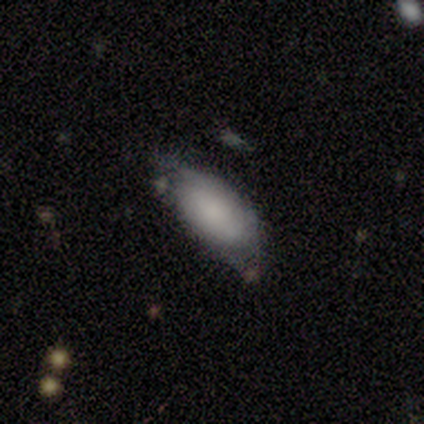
This appears to be a smooth galaxy with no disk features (80%) that is in between round and cigar-shaped (100%). Merging: none (50%, tied with minor disturbance).